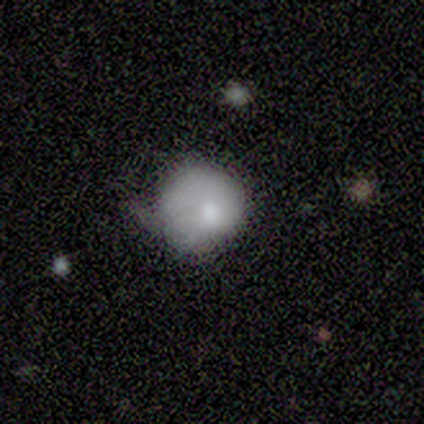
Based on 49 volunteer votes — Smooth or featured? 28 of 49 (57%) said smooth. How rounded? 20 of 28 (71%) said round. Merging? 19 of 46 (41%) said minor disturbance.